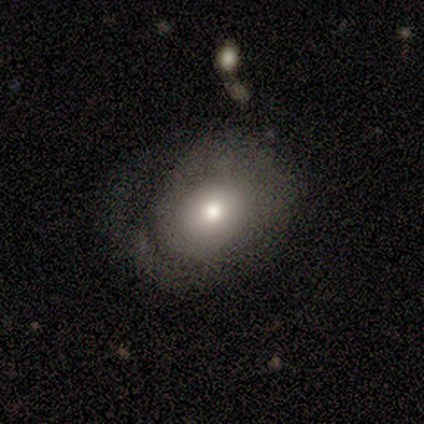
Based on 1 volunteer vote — smooth-or-featured: smooth: 100% | featured or disk: 0% | star or artifact: 0%
  how-rounded: in between: 100% | round: 0% | cigar-shaped: 0%
  merging: major disturbance: 100% | none: 0% | minor disturbance: 0% | merger: 0%